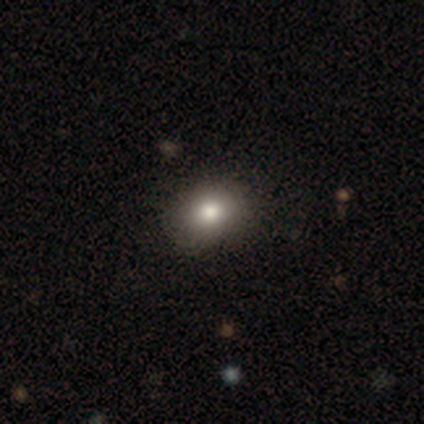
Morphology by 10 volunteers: Smooth or featured?
  - smooth: 80% *
  - star or artifact: 20%
  - featured or disk: 0%
How rounded?
  - round: 62% *
  - in between: 38%
  - cigar-shaped: 0%
Merging?
  - none: 100% *
  - minor disturbance: 0%
  - major disturbance: 0%
  - merger: 0%